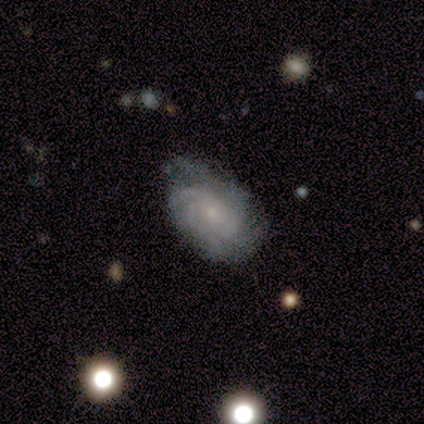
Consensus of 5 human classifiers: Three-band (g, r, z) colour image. It shows a featured or disk galaxy (100%) with no bar (60%), more than 4 (40%, tied with can't tell) tight (80%) spiral arms (100%) and a small central bulge (60%). Merging: none (60%).